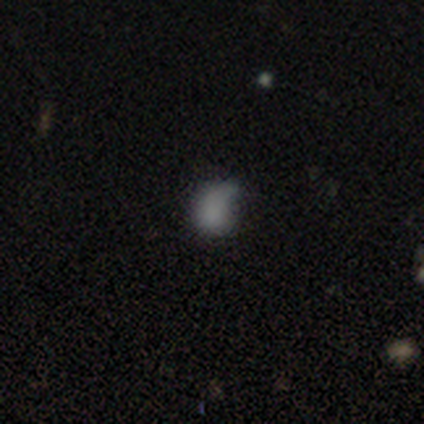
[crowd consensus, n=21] A smooth galaxy with no disk features (81%) that is in between round and cigar-shaped (59%). Merging: minor disturbance (56%).